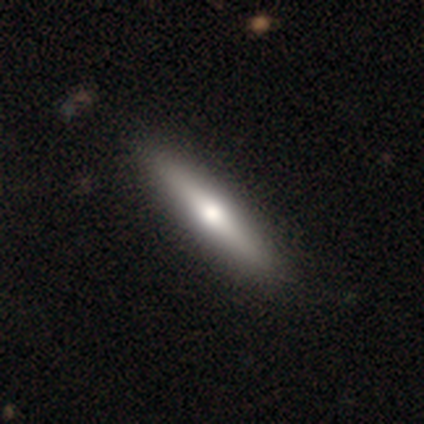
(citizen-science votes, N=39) This appears to be a smooth galaxy with no disk features (56%) that is cigar-shaped (91%). Merging: none (68%).